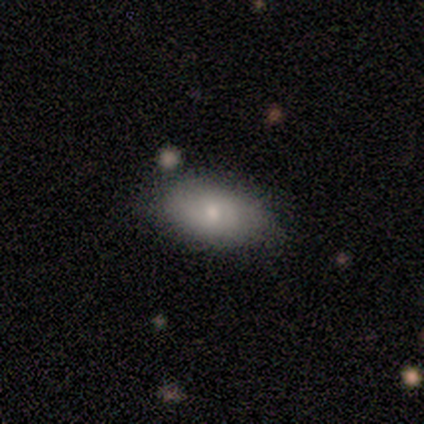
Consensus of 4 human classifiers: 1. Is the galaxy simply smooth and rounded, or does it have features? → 100% smooth, 0% featured or disk, 0% star or artifact.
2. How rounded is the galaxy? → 100% in between, 0% round, 0% cigar-shaped.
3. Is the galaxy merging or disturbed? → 75% none, 25% minor disturbance, 0% major disturbance, 0% merger.